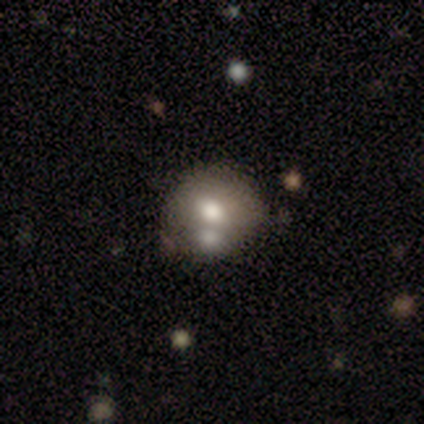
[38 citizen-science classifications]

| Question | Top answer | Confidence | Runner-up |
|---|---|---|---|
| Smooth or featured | smooth | 79% | featured or disk (11%) |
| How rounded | round | 67% | in between (30%) |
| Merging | none | 50% | merger (29%) |